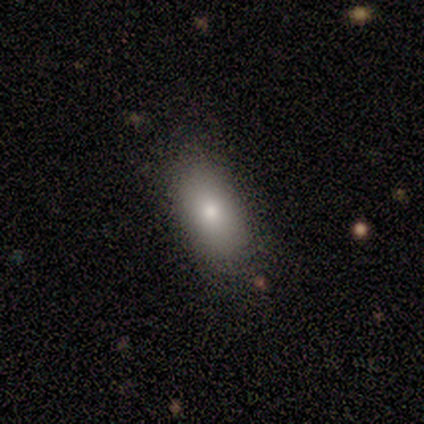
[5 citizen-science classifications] smooth_or_featured: smooth (p=0.80) [alt: featured or disk p=0.20]
how_rounded: in between (p=1.00)
merging: none (p=0.80) [alt: major disturbance p=0.20]